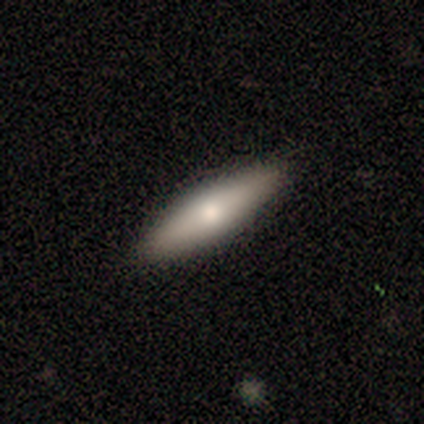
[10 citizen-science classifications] smooth-or-featured: smooth: 80% | featured or disk: 20% | star or artifact: 0%
  how-rounded: in between: 50% (tied) | cigar-shaped: 50% (tied) | round: 0%
  merging: none: 100% | minor disturbance: 0% | major disturbance: 0% | merger: 0%